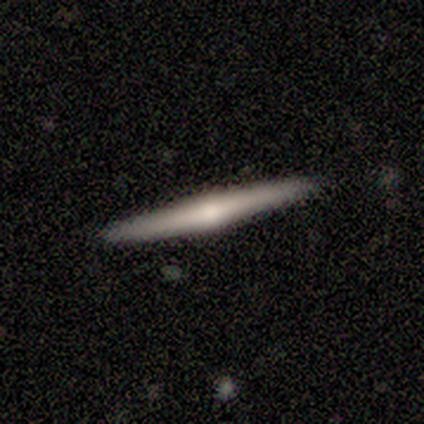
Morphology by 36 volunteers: Overall: featured or disk (64%; smooth 31%). Edge-on disk: yes (100%). Edge-on bulge: rounded (61%; none 39%). Merging: none (88%).